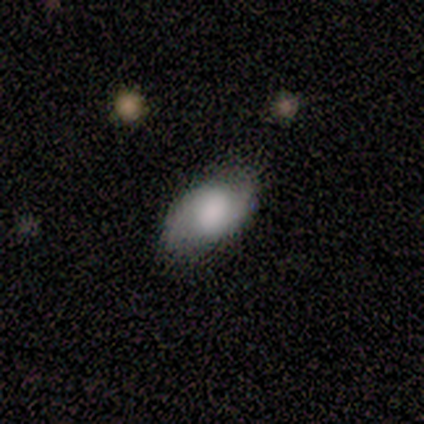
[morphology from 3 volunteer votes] smooth-or-featured: smooth: 100% | featured or disk: 0% | star or artifact: 0%
  how-rounded: in between: 67% | cigar-shaped: 33% | round: 0%
  merging: minor disturbance: 67% | none: 33% | major disturbance: 0% | merger: 0%